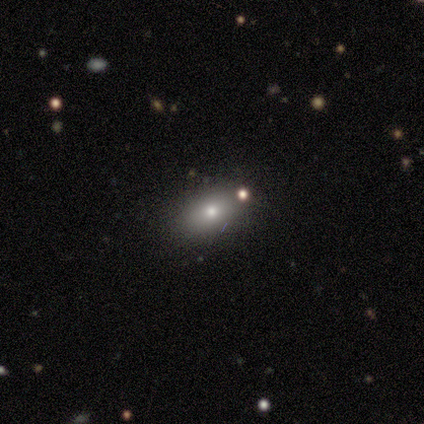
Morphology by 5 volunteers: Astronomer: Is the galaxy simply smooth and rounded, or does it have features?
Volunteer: smooth — 80%.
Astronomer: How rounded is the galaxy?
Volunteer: in between — 75%.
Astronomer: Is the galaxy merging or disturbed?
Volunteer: none — 60%.